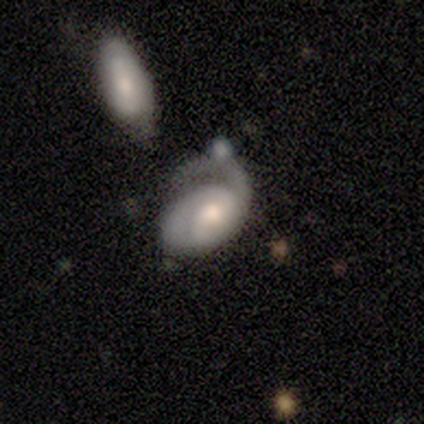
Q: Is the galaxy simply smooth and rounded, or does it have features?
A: featured or disk — 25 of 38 (66%).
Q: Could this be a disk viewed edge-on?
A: no — 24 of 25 (96%).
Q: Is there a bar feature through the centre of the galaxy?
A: no — 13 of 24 (54%).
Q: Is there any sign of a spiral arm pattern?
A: yes — 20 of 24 (83%).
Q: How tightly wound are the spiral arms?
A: tight — 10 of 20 (50%).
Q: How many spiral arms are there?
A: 2 — 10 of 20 (50%).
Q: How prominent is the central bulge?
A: moderate — 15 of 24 (62%).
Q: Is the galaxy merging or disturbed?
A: major disturbance — 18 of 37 (49%).